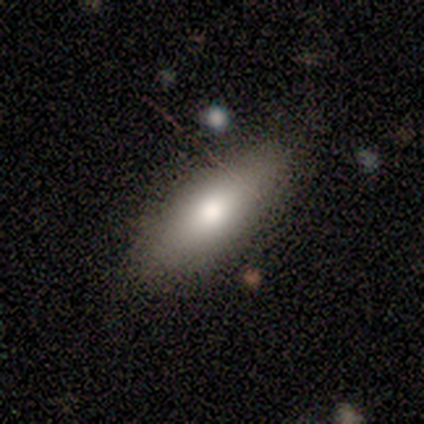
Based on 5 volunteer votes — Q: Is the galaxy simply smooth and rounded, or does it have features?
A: smooth — 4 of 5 (80%).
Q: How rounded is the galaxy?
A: in between — 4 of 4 (100%).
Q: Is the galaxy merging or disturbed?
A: none — 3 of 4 (75%).